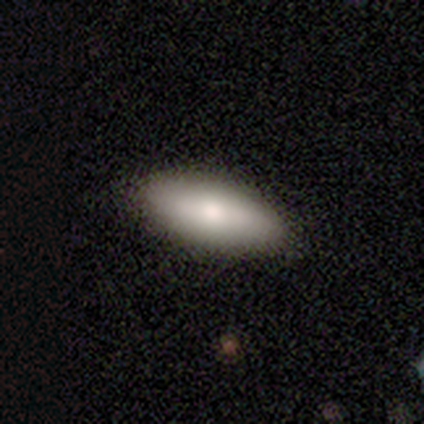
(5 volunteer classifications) Morphology: type=smooth (80%); roundness=in between (100%); merging=none (100%).